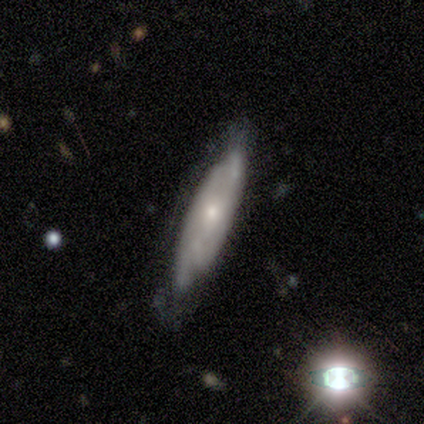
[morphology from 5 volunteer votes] featured or disk 80%, smooth 20%, star or artifact 0%. Down the decision tree: edge-on disk — no (100%); bar — no (50%); spiral arms — yes (100%); spiral arm count — 2 (75%); spiral winding — tight (75%); bulge size — moderate (50%, tied with small); merging — none (40%, tied with minor disturbance).